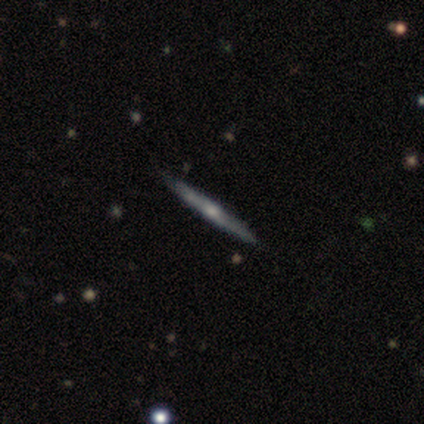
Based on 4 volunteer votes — Q: Smooth or featured?
A: smooth (50%); tied with: featured or disk (50%)
Q: How rounded?
A: cigar-shaped (100%)
Q: Merging?
A: none (100%)